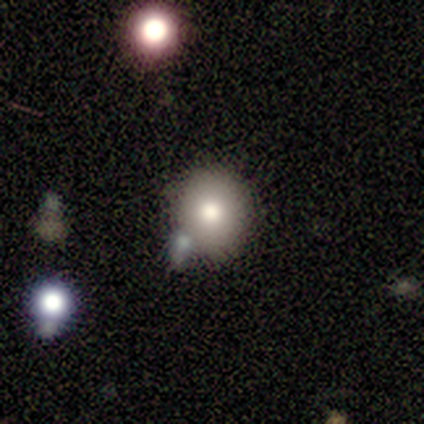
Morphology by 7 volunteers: smooth_or_featured: smooth (p=0.71) [alt: star or artifact p=0.29]
how_rounded: round (p=0.80) [alt: in between p=0.20]
merging: none (p=0.60) [alt: merger p=0.40]